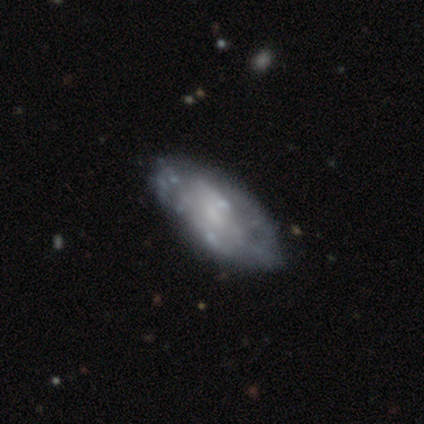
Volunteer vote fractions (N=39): featured or disk 59%, smooth 33%, star or artifact 8%. Down the decision tree: edge-on disk — no (96%); bar — no (82%); spiral arms — no (73%); bulge size — small (50%); merging — none (78%).